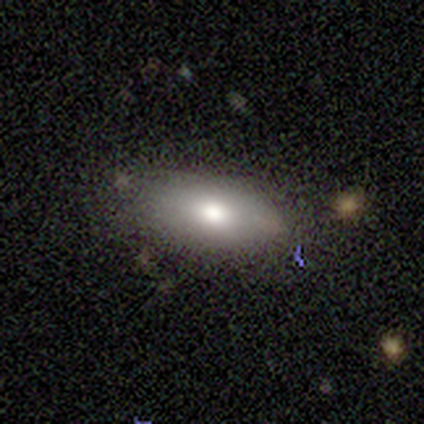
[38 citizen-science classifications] smooth-or-featured: smooth: 76% | featured or disk: 16% | star or artifact: 8%
  how-rounded: in between: 90% | round: 10% | cigar-shaped: 0%
  merging: none: 86% | minor disturbance: 11% | major disturbance: 3% | merger: 0%